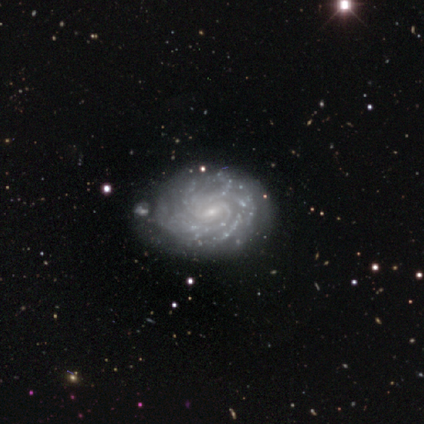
This appears to be a featured or disk galaxy (100%) with a weak bar (60%), 2 (20%, tied with 3, 4, more than 4 and can't tell) tight (100%) spiral arms (100%) and a small central bulge (100%). Merging: none (60%).